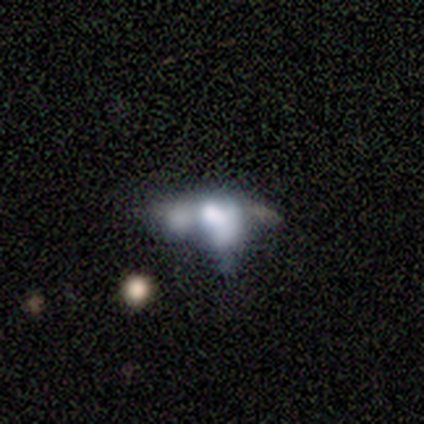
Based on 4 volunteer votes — A smooth galaxy with no disk features (75%) that is in between round and cigar-shaped (100%).

Vote fractions:
- Smooth or featured? smooth: 75% / featured or disk: 25% / star or artifact: 0%
- How rounded? in between: 100% / round: 0% / cigar-shaped: 0%
- Merging? merger: 75% / major disturbance: 25% / none: 0% / minor disturbance: 0%